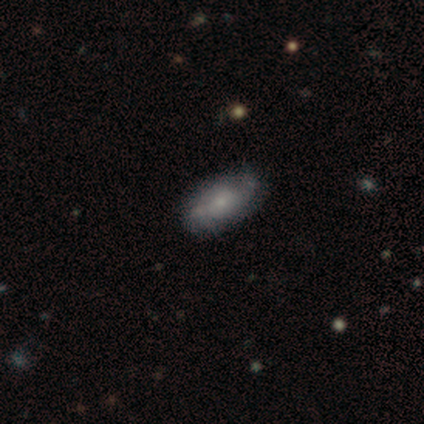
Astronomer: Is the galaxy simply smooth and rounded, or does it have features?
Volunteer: featured or disk — 60% (runner-up: smooth, 40%).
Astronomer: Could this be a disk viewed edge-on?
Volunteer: no — 100%.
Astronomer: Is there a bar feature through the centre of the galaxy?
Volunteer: no — 100%.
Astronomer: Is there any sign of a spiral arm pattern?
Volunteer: yes — 67%.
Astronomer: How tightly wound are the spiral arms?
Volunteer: tight — 50%, tied with loose at 50%.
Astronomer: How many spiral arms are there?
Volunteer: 2 — 50%, tied with can't tell at 50%.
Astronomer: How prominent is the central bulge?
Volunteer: small — 67%.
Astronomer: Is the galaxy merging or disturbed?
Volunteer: none — 80%.